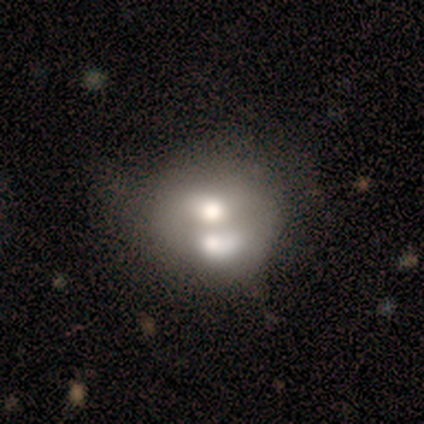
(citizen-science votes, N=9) Smooth or featured? 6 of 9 (67%) said smooth. How rounded? 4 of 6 (67%) said in between. Merging? 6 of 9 (67%) said merger.